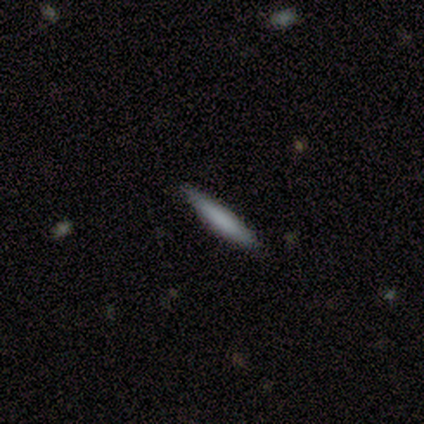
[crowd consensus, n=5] This appears to be a smooth galaxy with no disk features (80%) that is cigar-shaped (100%). Merging: none (80%).